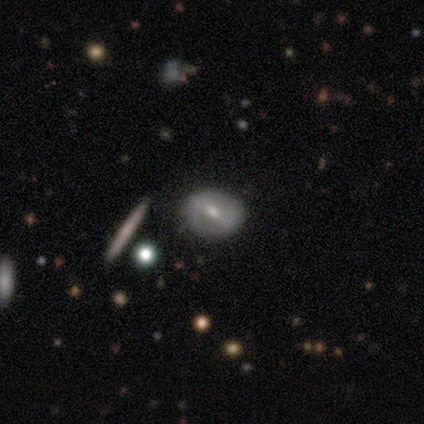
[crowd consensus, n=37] This appears to be a featured or disk galaxy (65%) with a strong bar (55%), no spiral arms (59%) and a moderate central bulge (45%). Merging: none (88%).